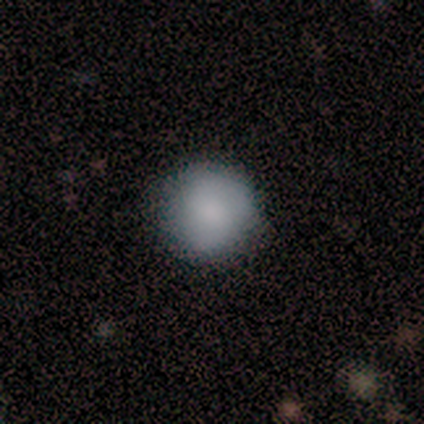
This appears to be a smooth galaxy with no disk features (100%) that is round (100%). Merging: none (100%).